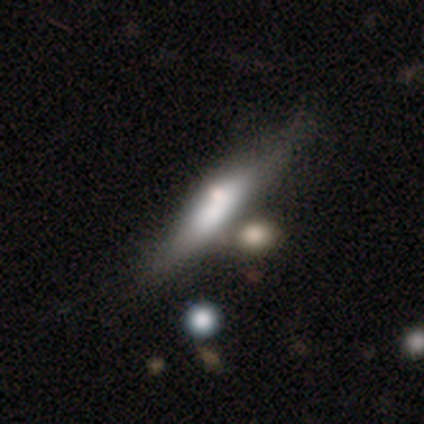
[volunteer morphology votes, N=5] Smooth or featured: featured or disk — 60% (smooth — 40%)
Edge-on disk: yes — 100%
Edge-on bulge: none — 67% (boxy — 33%)
Merging: none — 60% (minor disturbance — 20%)